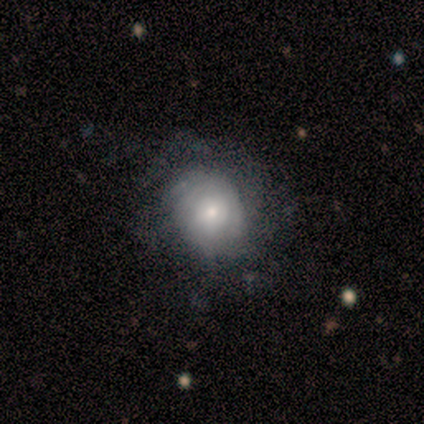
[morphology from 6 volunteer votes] A smooth galaxy with no disk features (67%) that is round (75%).

Vote fractions:
- Smooth or featured? smooth: 67% / featured or disk: 33% / star or artifact: 0%
- How rounded? round: 75% / in between: 25% / cigar-shaped: 0%
- Merging? none: 67% / minor disturbance: 33% / major disturbance: 0% / merger: 0%